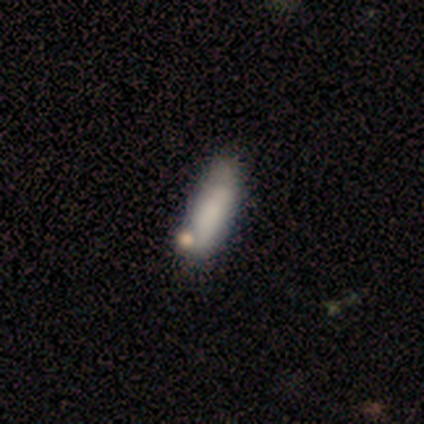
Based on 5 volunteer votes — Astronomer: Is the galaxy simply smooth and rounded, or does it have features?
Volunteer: smooth — 40%, tied with star or artifact at 40%.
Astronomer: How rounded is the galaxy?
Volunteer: in between — 50%, tied with cigar-shaped at 50%.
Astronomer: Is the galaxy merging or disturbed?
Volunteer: none — 33%, tied with minor disturbance and merger at 33%.